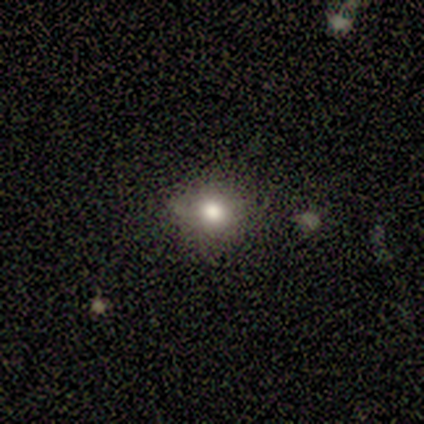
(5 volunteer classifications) Smooth or featured? 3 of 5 (60%) said smooth. How rounded? 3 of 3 (100%) said round. Merging? 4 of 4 (100%) said none.